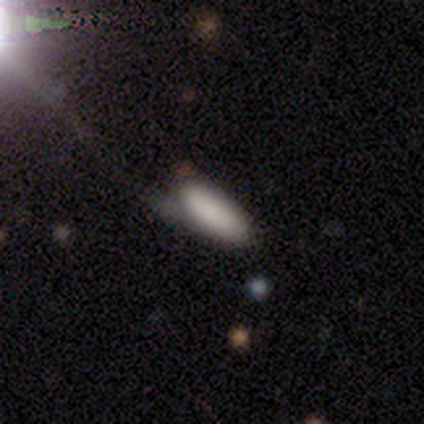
Smooth or featured? smooth (80%)
How rounded? in between (50%, tied with cigar-shaped)
Merging? minor disturbance (80%)